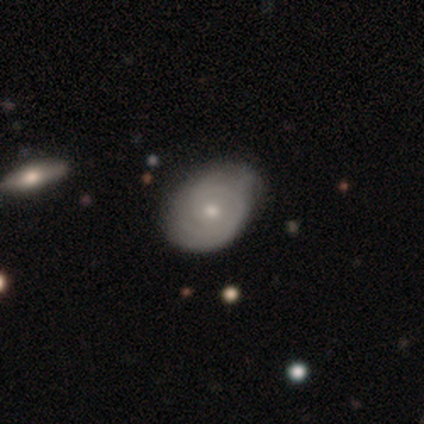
Smooth or featured?
  - featured or disk: 60% *
  - smooth: 20%
  - star or artifact: 20%
Edge-on disk?
  - no: 100% *
  - yes: 0%
Bar?
  - weak: 67% *
  - no: 33%
  - strong: 0%
Spiral arms?
  - yes: 67% *
  - no: 33%
Spiral winding?
  - tight: 100% *
  - medium: 0%
  - loose: 0%
Spiral arm count?
  - 3: 100% *
  - 1: 0%
  - 2: 0%
  - 4: 0%
  - more than 4: 0%
  - can't tell: 0%
Bulge size?
  - small: 100% *
  - dominant: 0%
  - large: 0%
  - moderate: 0%
  - none: 0%
Merging?
  - none: 75% *
  - minor disturbance: 25%
  - major disturbance: 0%
  - merger: 0%